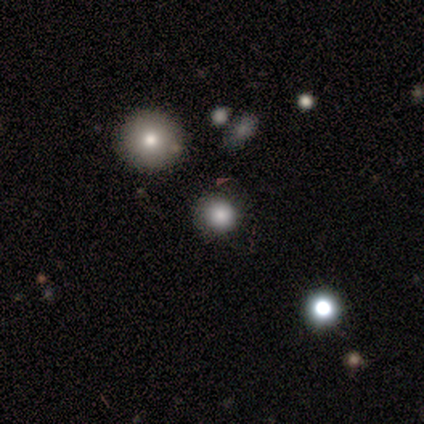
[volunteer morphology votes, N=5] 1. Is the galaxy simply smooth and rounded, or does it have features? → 60% smooth, 20% featured or disk, 20% star or artifact.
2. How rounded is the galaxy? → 100% round, 0% in between, 0% cigar-shaped.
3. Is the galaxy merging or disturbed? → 75% none, 25% merger, 0% minor disturbance, 0% major disturbance.